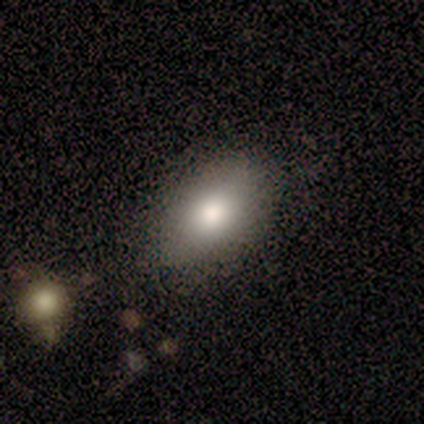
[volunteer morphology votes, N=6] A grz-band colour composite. It shows a smooth galaxy with no disk features (67%) that is in between round and cigar-shaped (75%). Merging: none (100%).